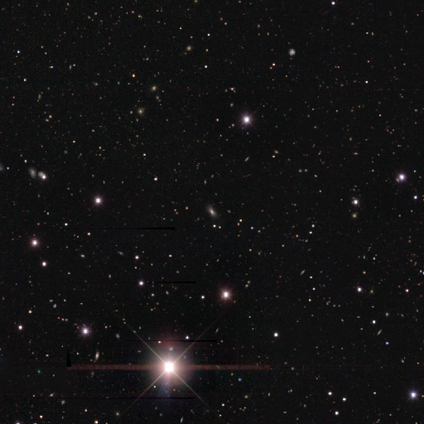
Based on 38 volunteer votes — Morphology: type=star or artifact (84%).